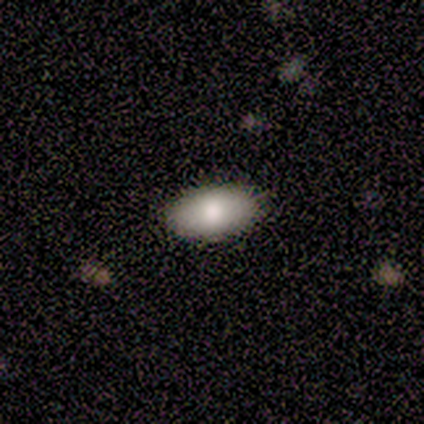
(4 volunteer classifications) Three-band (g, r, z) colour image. It shows a smooth galaxy with no disk features (100%) that is in between round and cigar-shaped (100%). Merging: none (100%).